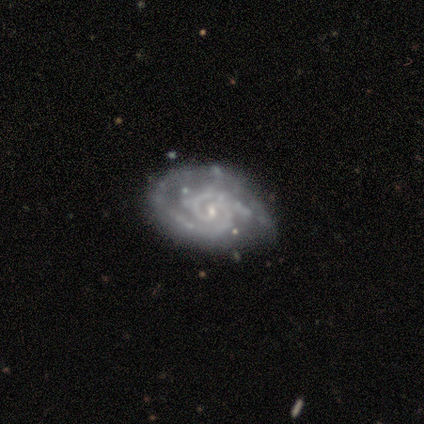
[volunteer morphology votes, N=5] Smooth or featured? featured or disk (80%)
Edge-on disk? no (100%)
Bar? weak (100%)
Spiral arms? yes (100%)
Spiral winding? tight (100%)
Spiral arm count? 2 (75%)
Bulge size? small (100%)
Merging? none (100%)